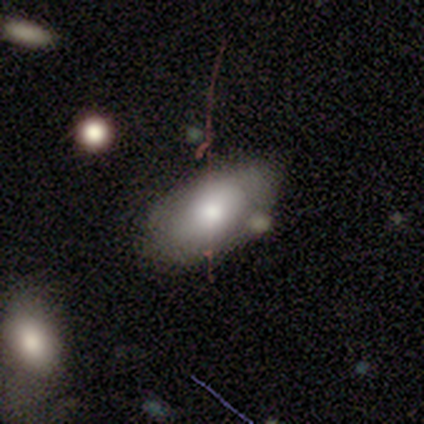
smooth 68%, featured or disk 24%, star or artifact 8%. Down the decision tree: how rounded — in between (96%); merging — none (44%).